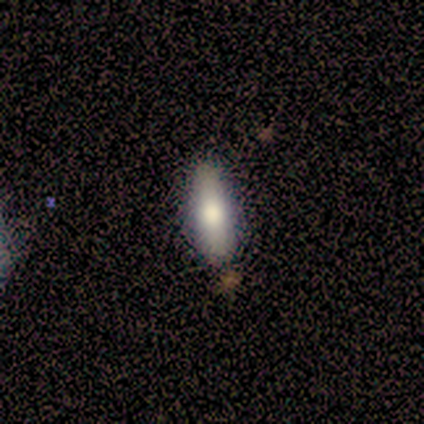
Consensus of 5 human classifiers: Smooth or featured: smooth — 100%
How rounded: cigar-shaped — 60% (in between — 40%)
Merging: none — 100%